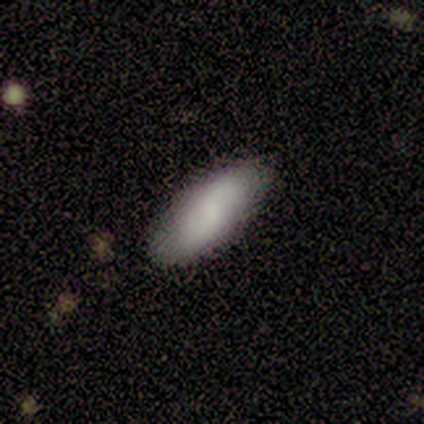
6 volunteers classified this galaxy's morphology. smooth 100%, featured or disk 0%, star or artifact 0%. Down the decision tree: how rounded — in between (67%); merging — none (83%).